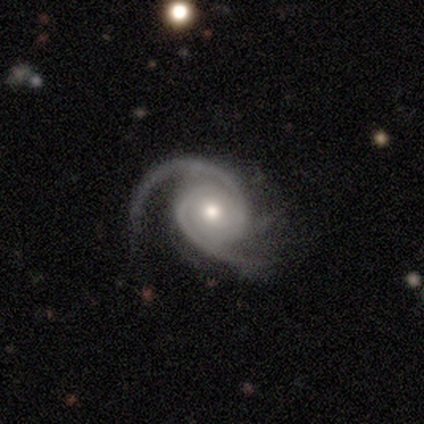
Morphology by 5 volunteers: smooth_or_featured: featured or disk (p=1.00)
disk_edge_on: no (p=1.00)
bar: no (p=0.60) [alt: strong p=0.20]
has_spiral_arms: yes (p=1.00)
spiral_winding: tight (p=0.60) [alt: medium p=0.40]
spiral_arm_count: 2 (p=0.60) [alt: 3 p=0.20]
bulge_size: moderate (p=1.00)
merging: minor disturbance (p=0.60) [alt: none p=0.40]